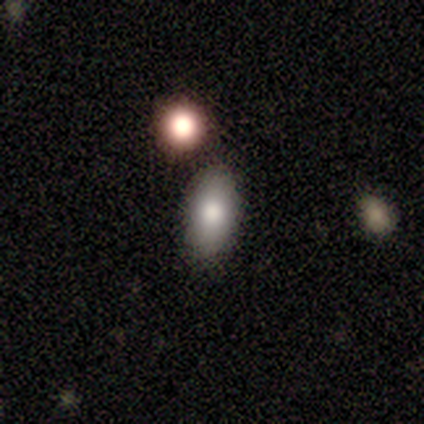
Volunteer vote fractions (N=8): Overall: smooth (100%). How rounded: in between (100%). Merging: none (75%).